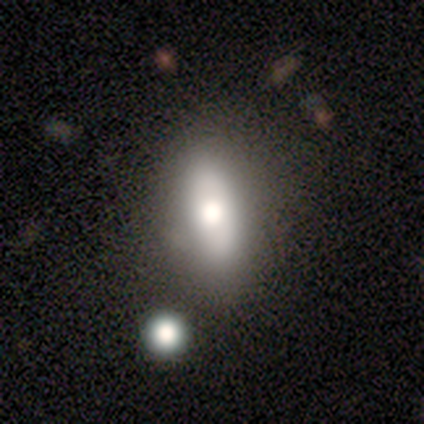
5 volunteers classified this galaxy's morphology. This appears to be a smooth galaxy with no disk features (40%, tied with star or artifact) that is in between round and cigar-shaped (100%). Merging: none (33%, tied with minor disturbance and merger).